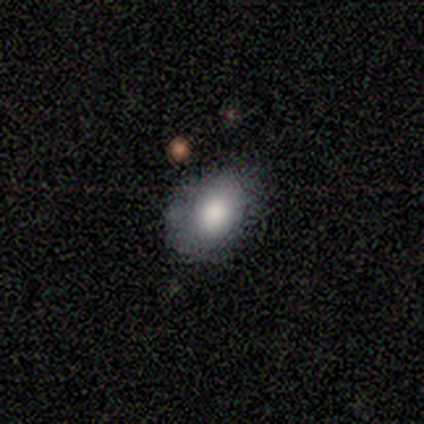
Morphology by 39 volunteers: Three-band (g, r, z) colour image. It shows a smooth galaxy with no disk features (79%) that is in between round and cigar-shaped (74%). Merging: none (65%).